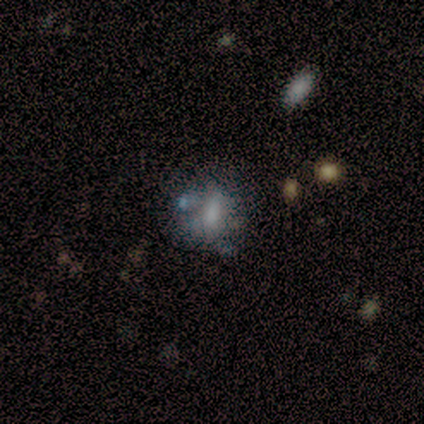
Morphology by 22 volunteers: Smooth or featured? smooth (68%)
How rounded? in between (60%)
Merging? none (45%)